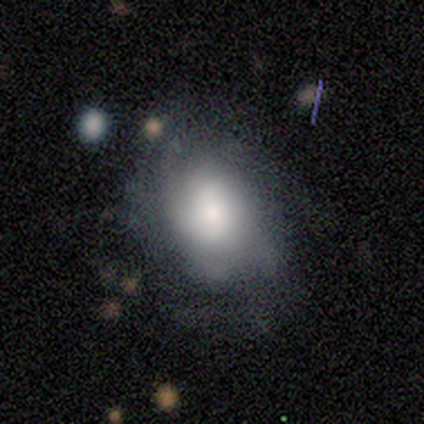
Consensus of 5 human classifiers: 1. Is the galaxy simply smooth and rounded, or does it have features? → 60% smooth, 40% featured or disk, 0% star or artifact.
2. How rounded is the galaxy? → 100% in between, 0% round, 0% cigar-shaped.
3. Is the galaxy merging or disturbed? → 80% none, 20% minor disturbance, 0% major disturbance, 0% merger.